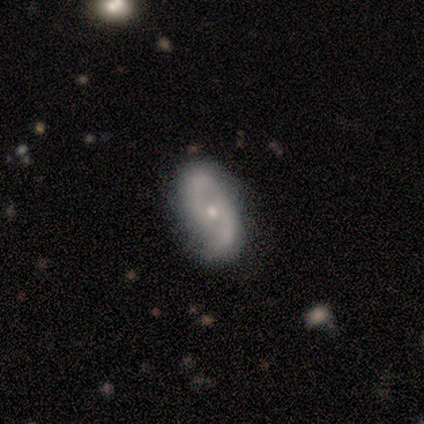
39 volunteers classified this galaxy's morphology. smooth_or_featured: featured or disk (p=0.62) [alt: smooth p=0.26]
disk_edge_on: no (p=0.83) [alt: yes p=0.17]
bar: no (p=0.55) [alt: weak p=0.45]
has_spiral_arms: yes (p=1.00)
spiral_winding: tight (p=0.40) [alt: loose p=0.35]
spiral_arm_count: 2 (p=0.90) [alt: can't tell p=0.10]
bulge_size: small (p=0.60) [alt: moderate p=0.35]
merging: none (p=0.74) [alt: minor disturbance p=0.24]